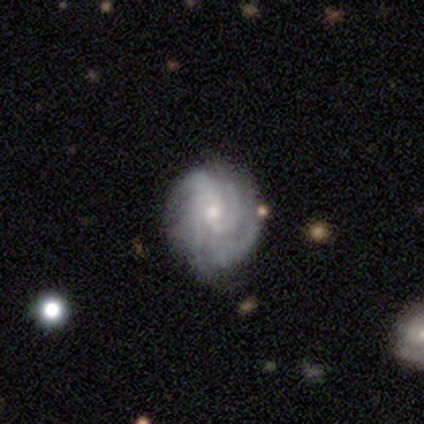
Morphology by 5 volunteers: Smooth or featured: featured or disk — 100%
Edge-on disk: no — 100%
Bar: no — 60% (strong — 20%)
Spiral arms: yes — 100%
Spiral winding: tight — 100%
Spiral arm count: 3 — 60% (2 — 20%)
Bulge size: small — 100%
Merging: none — 100%